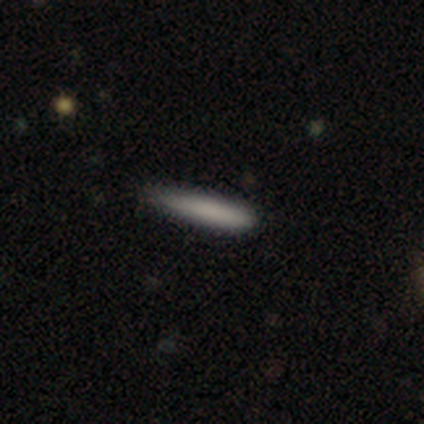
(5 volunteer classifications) smooth_or_featured: smooth (p=1.00)
how_rounded: cigar-shaped (p=0.80) [alt: in between p=0.20]
merging: none (p=0.60) [alt: minor disturbance p=0.40]